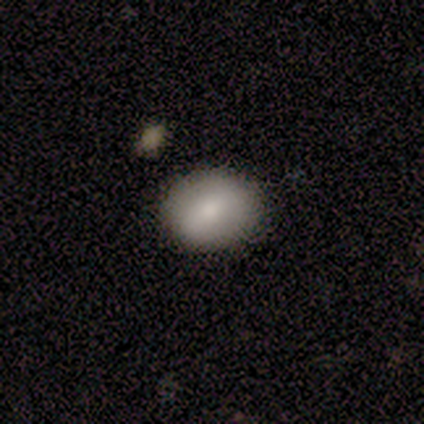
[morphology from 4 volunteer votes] smooth 100%, featured or disk 0%, star or artifact 0%. Down the decision tree: how rounded — round (50%, tied with in between); merging — none (75%).